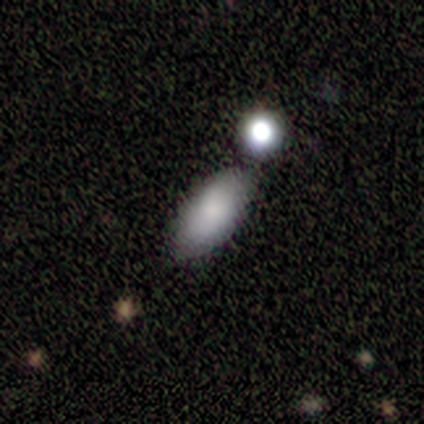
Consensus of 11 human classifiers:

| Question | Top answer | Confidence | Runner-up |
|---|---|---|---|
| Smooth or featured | smooth | 100% | — |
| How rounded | in between | 100% | — |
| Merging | none | 73% | minor disturbance (18%) |